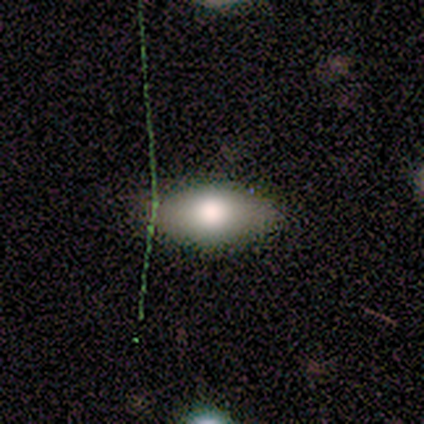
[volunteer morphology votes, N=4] Q: Smooth or featured?
A: smooth (75%); runner-up: featured or disk (25%)
Q: How rounded?
A: in between (100%)
Q: Merging?
A: none (75%); runner-up: major disturbance (25%)